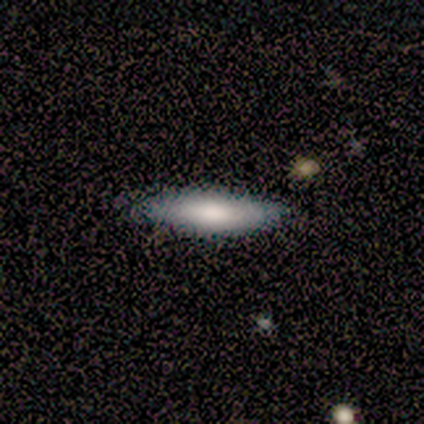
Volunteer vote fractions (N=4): A smooth galaxy with no disk features (100%) that is cigar-shaped (100%). Merging: none (100%).